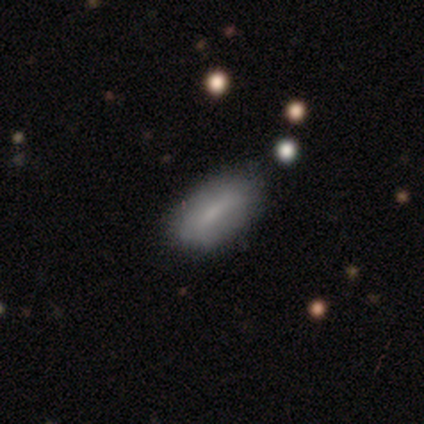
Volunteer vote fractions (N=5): smooth_or_featured: smooth (p=0.80) [alt: featured or disk p=0.20]
how_rounded: in between (p=1.00)
merging: none (p=0.60) [alt: minor disturbance p=0.40]